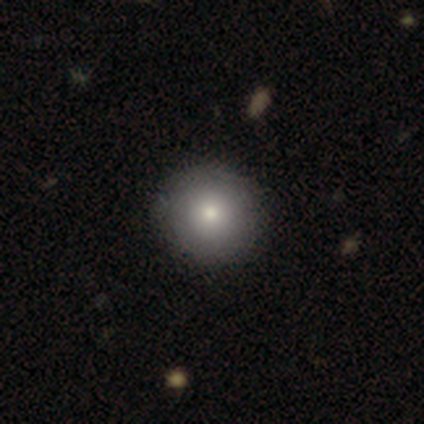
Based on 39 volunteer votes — smooth 79%, featured or disk 10%, star or artifact 10%. Down the decision tree: how rounded — round (100%); merging — none (69%).